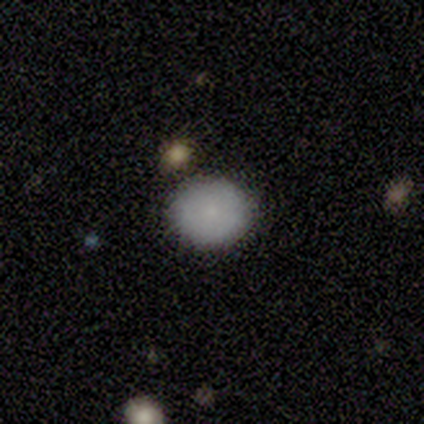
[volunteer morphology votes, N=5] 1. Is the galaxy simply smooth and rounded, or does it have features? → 100% smooth, 0% featured or disk, 0% star or artifact.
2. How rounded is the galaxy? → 80% round, 20% in between, 0% cigar-shaped.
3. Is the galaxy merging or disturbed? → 80% none, 20% merger, 0% minor disturbance, 0% major disturbance.